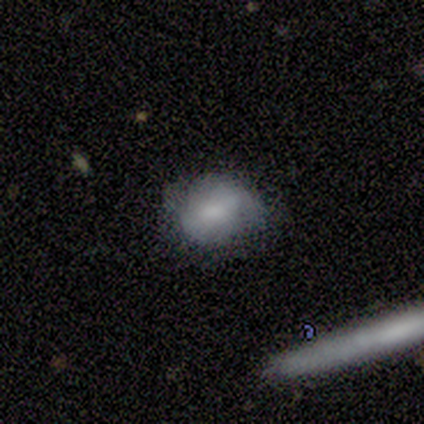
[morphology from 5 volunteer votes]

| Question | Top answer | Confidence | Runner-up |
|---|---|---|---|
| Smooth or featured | smooth | 60% | featured or disk (20%) |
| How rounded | round | 67% | in between (33%) |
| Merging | none | 75% | minor disturbance (25%) |